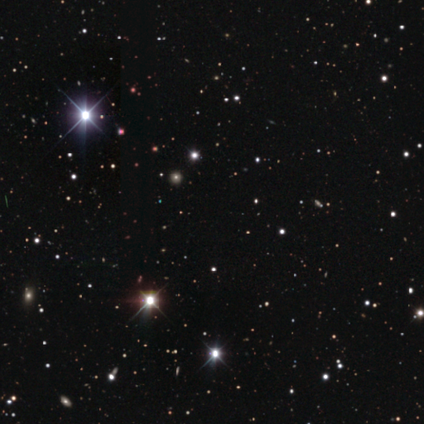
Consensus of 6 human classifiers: Q: Smooth or featured?
A: star or artifact (100%)